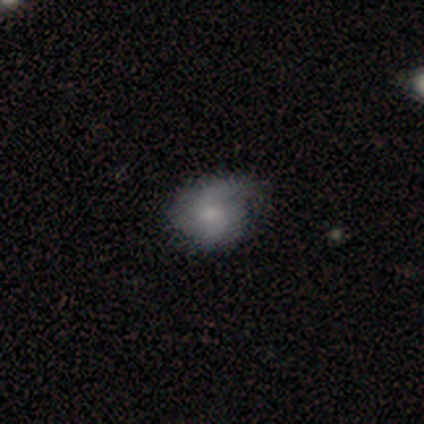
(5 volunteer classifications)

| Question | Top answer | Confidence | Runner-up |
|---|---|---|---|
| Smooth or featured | featured or disk | 80% | smooth (20%) |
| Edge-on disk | no | 100% | — |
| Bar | no | 100% | — |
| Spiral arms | yes | 100% | — |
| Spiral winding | loose | 50% | tight (25%) |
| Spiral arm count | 2 | 75% | 1 (25%) |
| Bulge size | moderate | 50% | tied: small (50%) |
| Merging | none | 40% | tied: major disturbance (40%) |